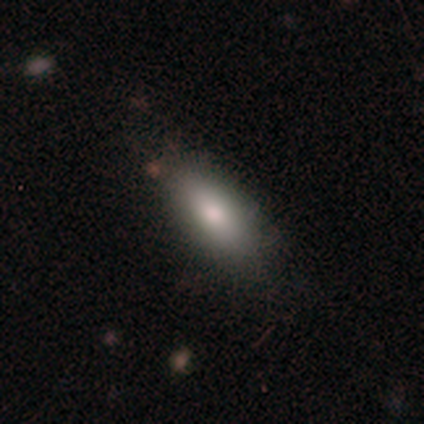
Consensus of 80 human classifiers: Smooth or featured? smooth (86%)
How rounded? in between (87%)
Merging? none (41%)